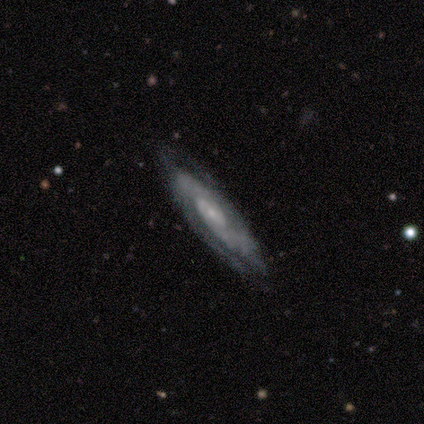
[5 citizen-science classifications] smooth_or_featured: featured or disk (p=0.80) [alt: smooth p=0.20]
disk_edge_on: no (p=0.75) [alt: yes p=0.25]
bar: no (p=0.67) [alt: weak p=0.33]
has_spiral_arms: yes (p=0.67) [alt: no p=0.33]
spiral_winding: medium (p=1.00)
spiral_arm_count: 2 (p=0.50) [tied with: can't tell p=0.50]
bulge_size: small (p=0.67) [alt: moderate p=0.33]
merging: none (p=1.00)